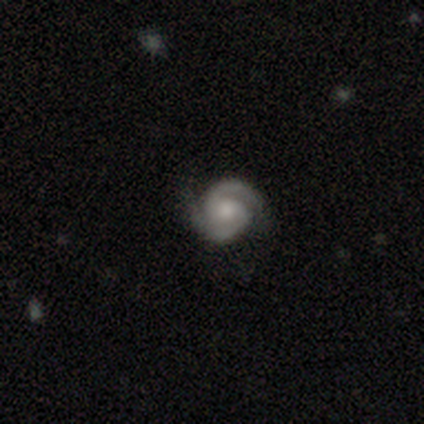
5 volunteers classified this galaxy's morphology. smooth-or-featured: featured or disk: 100% | smooth: 0% | star or artifact: 0%
  disk-edge-on: no: 100% | yes: 0%
    bar: no: 80% | weak: 20% | strong: 0%
    has-spiral-arms: yes: 100% | no: 0%
      spiral-winding: tight: 40% (tied) | medium: 40% (tied) | loose: 20%
      spiral-arm-count: 2: 100% | 1: 0% | 3: 0% | 4: 0% | more than 4: 0% | can't tell: 0%
    bulge-size: small: 60% | moderate: 40% | dominant: 0% | large: 0% | none: 0%
  merging: none: 100% | minor disturbance: 0% | major disturbance: 0% | merger: 0%